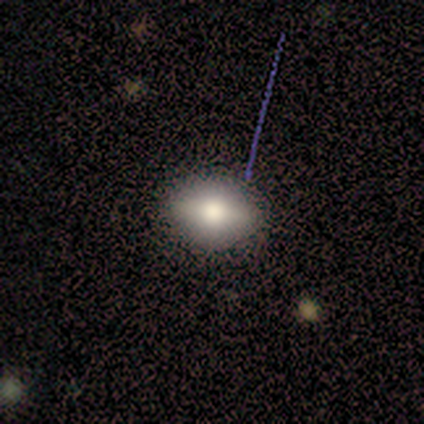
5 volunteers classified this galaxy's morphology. smooth-or-featured: smooth: 40% (tied) | star or artifact: 40% (tied) | featured or disk: 20%
  how-rounded: round: 50% (tied) | in between: 50% (tied) | cigar-shaped: 0%
  merging: none: 100% | minor disturbance: 0% | major disturbance: 0% | merger: 0%